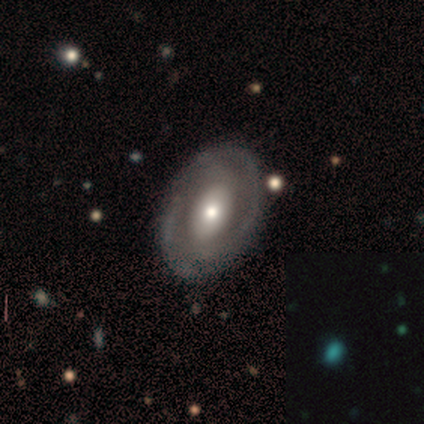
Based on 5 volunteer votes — Morphology: type=smooth (40%, tied with featured or disk); roundness=in between (100%); merging=none (100%).